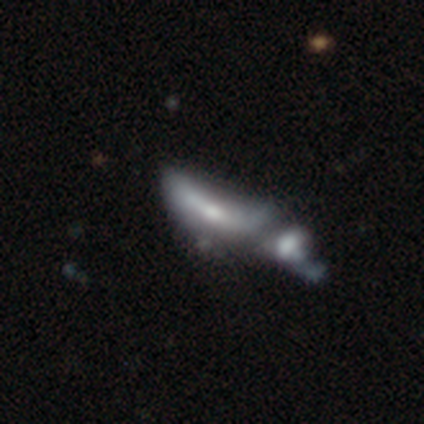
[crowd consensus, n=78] Smooth or featured? 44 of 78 (56%) said featured or disk. Edge-on disk? 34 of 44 (77%) said no. Bar? 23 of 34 (68%) said no. Spiral arms? 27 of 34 (79%) said no. Bulge size? 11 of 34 (32%, tied with small) said moderate. Merging? 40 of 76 (53%) said merger.